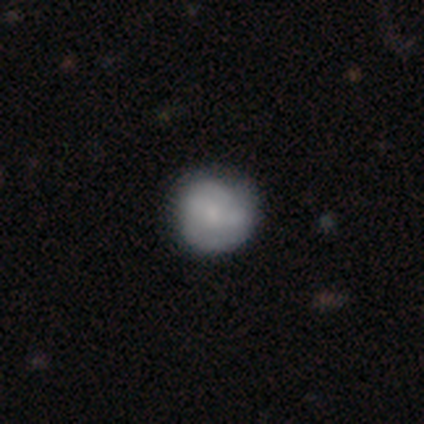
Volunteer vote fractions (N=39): A smooth galaxy with no disk features (56%) that is round (95%). Merging: none (49%).